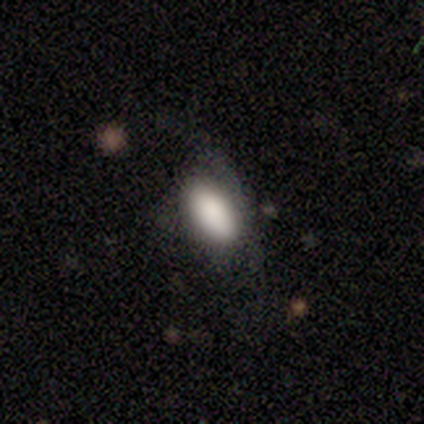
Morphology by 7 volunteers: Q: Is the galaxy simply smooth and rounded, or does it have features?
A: smooth — 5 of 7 (71%).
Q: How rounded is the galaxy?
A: in between — 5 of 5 (100%).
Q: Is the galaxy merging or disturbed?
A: minor disturbance — 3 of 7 (43%).